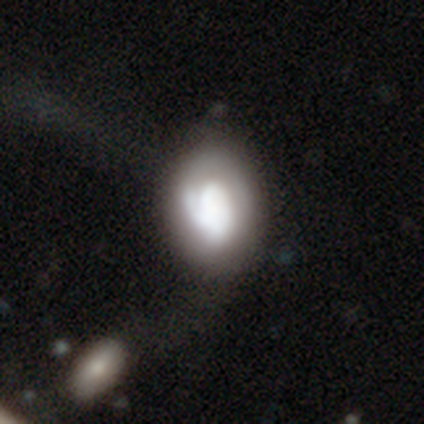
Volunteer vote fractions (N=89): Smooth or featured? featured or disk (52%)
Edge-on disk? no (93%)
Bar? no (84%)
Spiral arms? yes (60%)
Spiral winding? tight (65%)
Spiral arm count? 1 (65%)
Bulge size? large (47%)
Merging? none (36%)